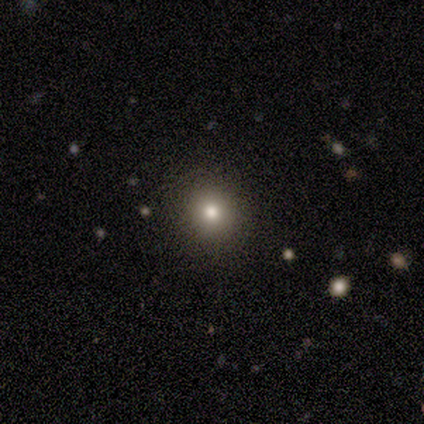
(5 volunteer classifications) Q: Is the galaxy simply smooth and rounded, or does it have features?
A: smooth — 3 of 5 (60%).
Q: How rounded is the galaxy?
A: round — 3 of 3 (100%).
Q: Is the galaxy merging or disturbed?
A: none — 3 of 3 (100%).